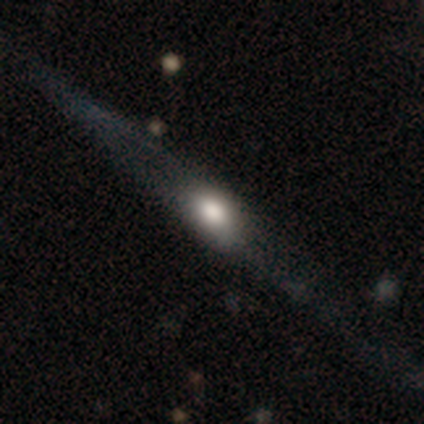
Smooth or featured? 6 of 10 (60%) said featured or disk. Edge-on disk? 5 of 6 (83%) said yes. Edge-on bulge? 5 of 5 (100%) said rounded. Merging? 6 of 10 (60%) said none.